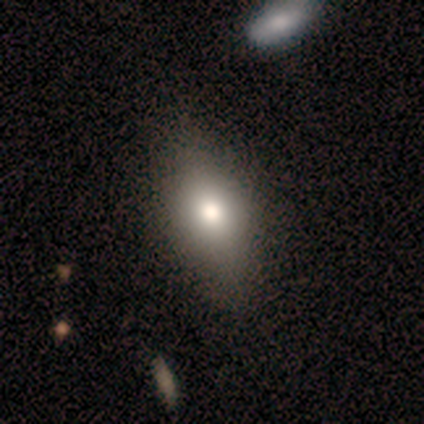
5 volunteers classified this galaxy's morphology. smooth-or-featured: featured or disk: 60% | smooth: 40% | star or artifact: 0%
  disk-edge-on: yes: 100% | no: 0%
    edge-on-bulge: rounded: 100% | boxy: 0% | none: 0%
  merging: none: 80% | minor disturbance: 20% | major disturbance: 0% | merger: 0%